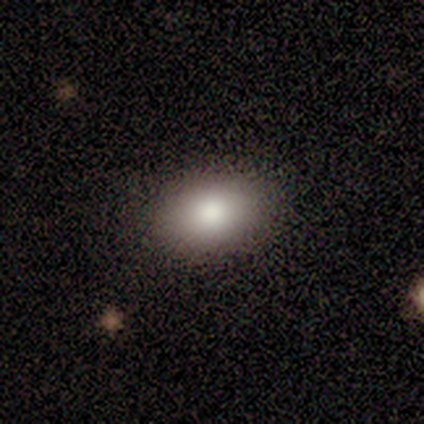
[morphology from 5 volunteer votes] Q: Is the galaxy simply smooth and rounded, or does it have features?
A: smooth — 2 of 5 (40%, tied with featured or disk).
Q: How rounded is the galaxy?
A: in between — 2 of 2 (100%).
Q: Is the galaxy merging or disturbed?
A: none — 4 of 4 (100%).